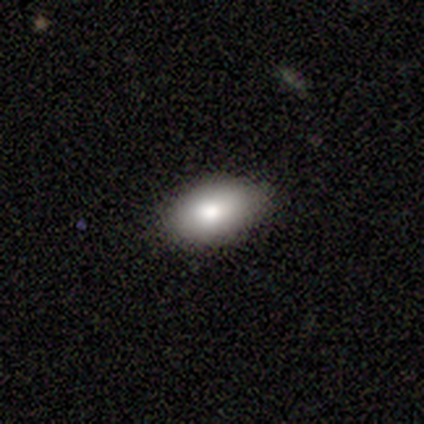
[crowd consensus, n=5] This appears to be a smooth galaxy with no disk features (100%) that is in between round and cigar-shaped (100%). Merging: none (80%).